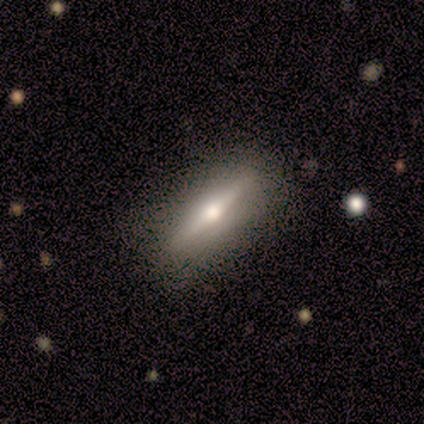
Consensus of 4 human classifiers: A featured or disk galaxy (75%) viewed edge-on (100%) with a rounded central bulge (100%).

Vote fractions:
- Smooth or featured? featured or disk: 75% / smooth: 25% / star or artifact: 0%
- Edge-on disk? yes: 100% / no: 0%
- Edge-on bulge? rounded: 100% / boxy: 0% / none: 0%
- Merging? none: 75% / major disturbance: 25% / minor disturbance: 0% / merger: 0%